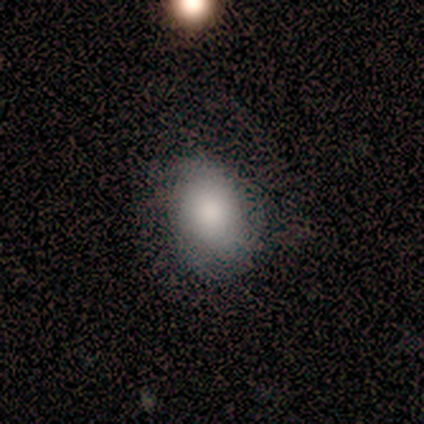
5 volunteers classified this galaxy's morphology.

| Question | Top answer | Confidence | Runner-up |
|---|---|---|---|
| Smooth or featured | smooth | 80% | star or artifact (20%) |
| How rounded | in between | 75% | round (25%) |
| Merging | none | 75% | major disturbance (25%) |